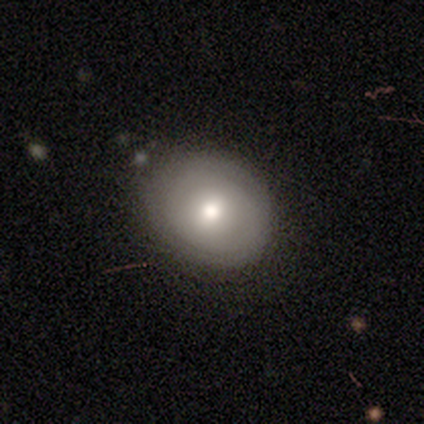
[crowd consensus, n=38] Smooth or featured? smooth (68%)
How rounded? round (69%)
Merging? none (75%)